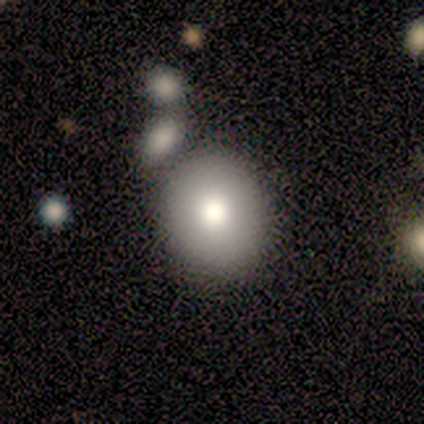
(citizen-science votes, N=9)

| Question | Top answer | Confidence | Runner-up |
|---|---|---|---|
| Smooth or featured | smooth | 89% | featured or disk (11%) |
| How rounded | round | 75% | in between (25%) |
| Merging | none | 78% | minor disturbance (11%) |